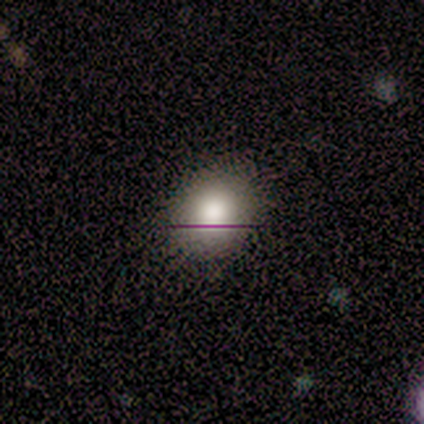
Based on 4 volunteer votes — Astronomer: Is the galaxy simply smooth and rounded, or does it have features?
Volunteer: smooth — 75%.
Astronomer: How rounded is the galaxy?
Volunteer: round — 67%.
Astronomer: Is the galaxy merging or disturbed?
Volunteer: none — 100%.